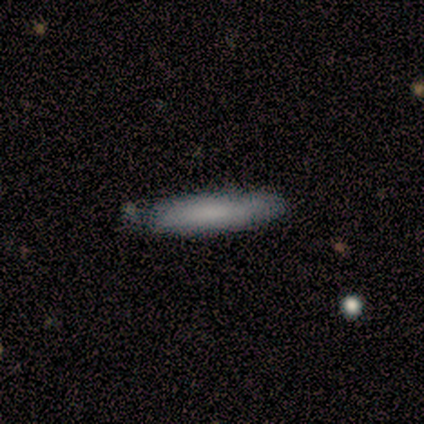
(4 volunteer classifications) Morphology: type=smooth (75%); roundness=cigar-shaped (100%); merging=none (100%).